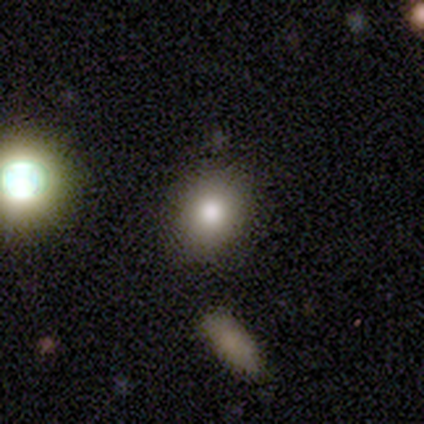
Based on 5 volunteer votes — A smooth galaxy with no disk features (80%) that is in between round and cigar-shaped (75%).

Vote fractions:
- Smooth or featured? smooth: 80% / star or artifact: 20% / featured or disk: 0%
- How rounded? in between: 75% / round: 25% / cigar-shaped: 0%
- Merging? none: 75% / minor disturbance: 25% / major disturbance: 0% / merger: 0%